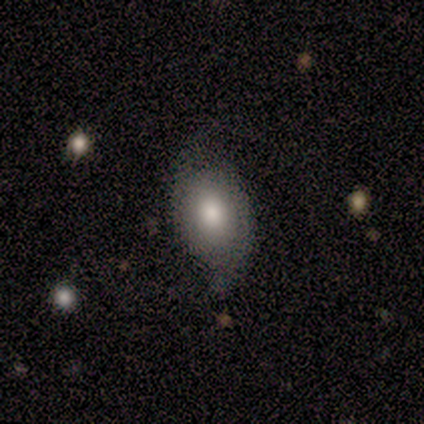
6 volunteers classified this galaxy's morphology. This appears to be a smooth galaxy with no disk features (67%) that is round (50%, tied with in between). Merging: none (50%, tied with minor disturbance).